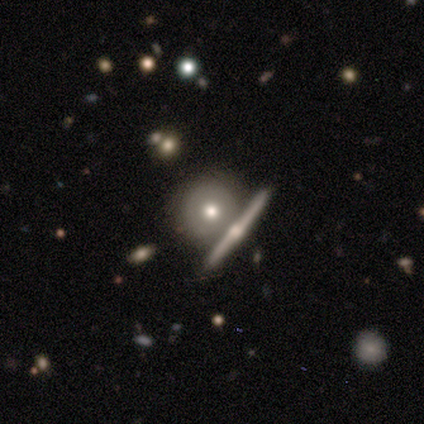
Morphology: type=featured or disk (40%, tied with star or artifact); edge-on=yes (50%, tied with no); edge-on bulge=rounded (100%); merging=none (100%).